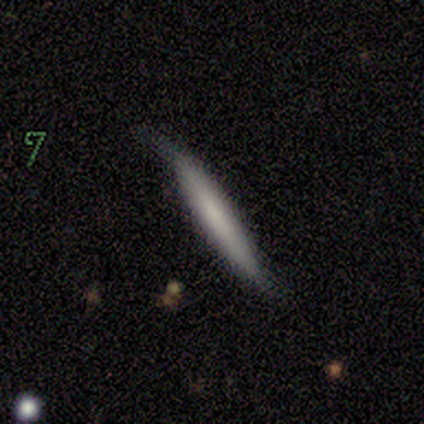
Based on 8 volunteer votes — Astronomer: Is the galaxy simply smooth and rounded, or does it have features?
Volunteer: smooth — 62%.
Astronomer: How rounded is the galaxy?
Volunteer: cigar-shaped — 100%.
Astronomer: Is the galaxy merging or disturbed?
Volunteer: minor disturbance — 50%.